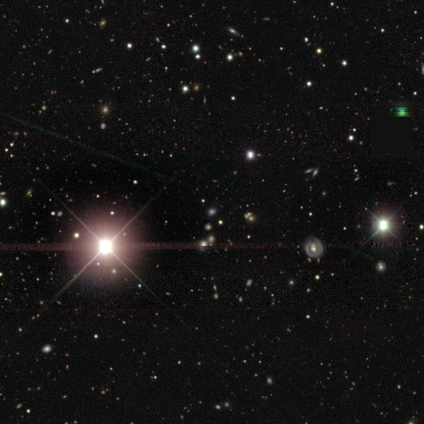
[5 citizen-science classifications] Morphology: type=star or artifact (100%).